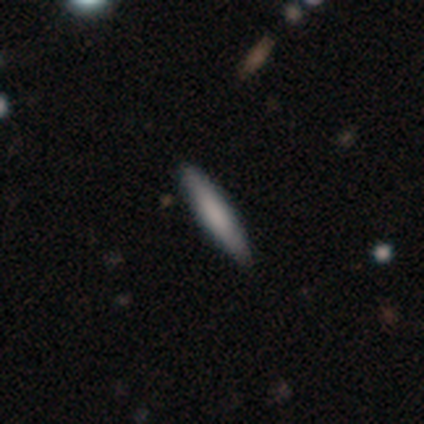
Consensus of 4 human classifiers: smooth 75%, featured or disk 25%, star or artifact 0%. Down the decision tree: how rounded — cigar-shaped (100%); merging — none (100%).